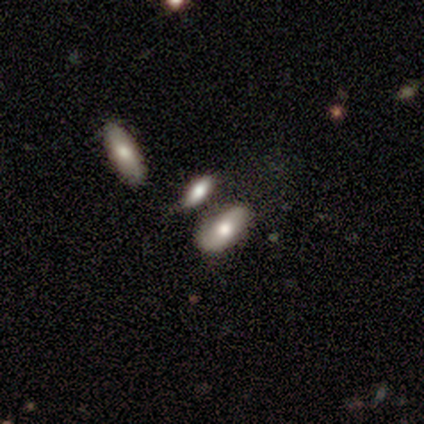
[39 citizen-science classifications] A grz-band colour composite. It shows a smooth galaxy with no disk features (72%) that is in between round and cigar-shaped (89%). Merging: none (64%).